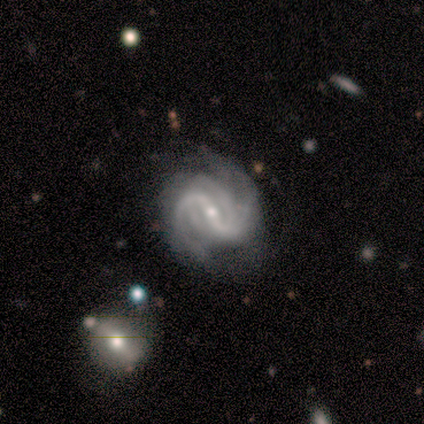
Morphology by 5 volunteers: Smooth or featured? 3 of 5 (60%) said featured or disk. Edge-on disk? 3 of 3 (100%) said no. Bar? 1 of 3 (33%, tied with weak and no) said strong. Spiral arms? 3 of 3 (100%) said yes. Spiral winding? 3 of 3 (100%) said medium. Spiral arm count? 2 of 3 (67%) said 2. Bulge size? 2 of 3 (67%) said small. Merging? 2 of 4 (50%) said none.